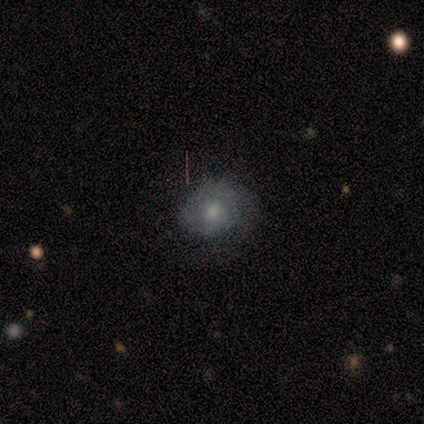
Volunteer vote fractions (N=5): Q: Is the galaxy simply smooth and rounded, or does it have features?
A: smooth — 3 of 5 (60%).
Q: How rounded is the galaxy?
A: round — 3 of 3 (100%).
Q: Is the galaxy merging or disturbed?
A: none — 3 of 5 (60%).